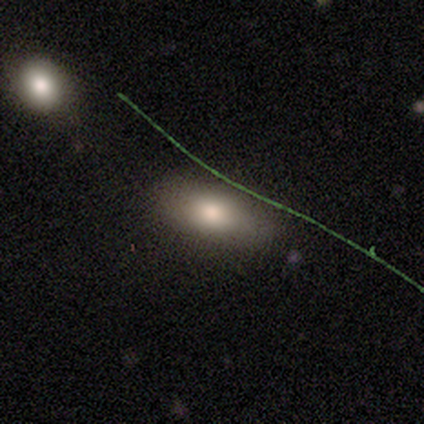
Volunteers were most divided on "how rounded": in between: 80%, cigar-shaped: 20%, round: 0%. More confident: smooth or featured — smooth (100%); merging — none (80%).